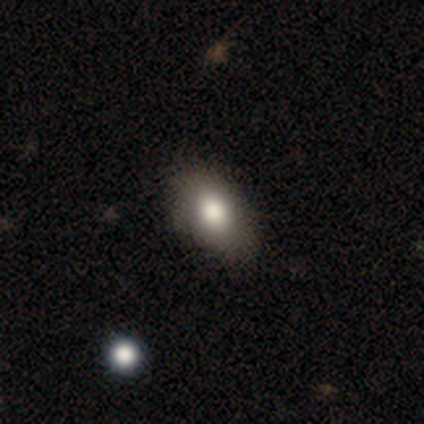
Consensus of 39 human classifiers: Overall: smooth (77%). How rounded: in between (97%). Merging: none (80%).